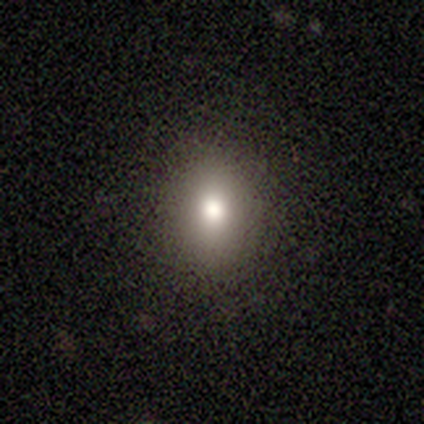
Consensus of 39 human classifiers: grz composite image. It shows a smooth galaxy with no disk features (90%) that is round (54%). Merging: none (89%).